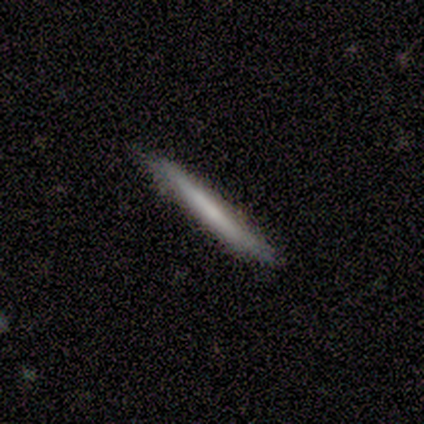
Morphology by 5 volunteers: smooth-or-featured: smooth: 80% | featured or disk: 20% | star or artifact: 0%
  how-rounded: cigar-shaped: 100% | round: 0% | in between: 0%
  merging: none: 80% | minor disturbance: 20% | major disturbance: 0% | merger: 0%